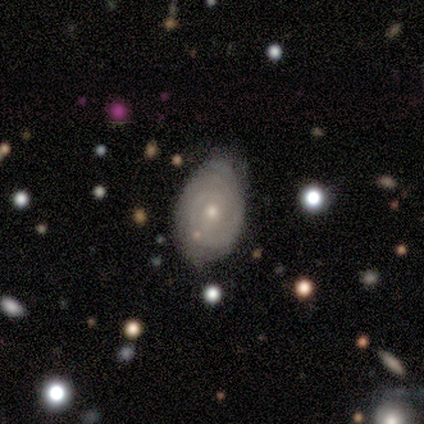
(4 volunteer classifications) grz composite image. It shows a featured or disk galaxy (75%) with no bar (100%), tight (100%) spiral arms (67%) and a small central bulge (67%). Merging: none (50%, tied with minor disturbance).